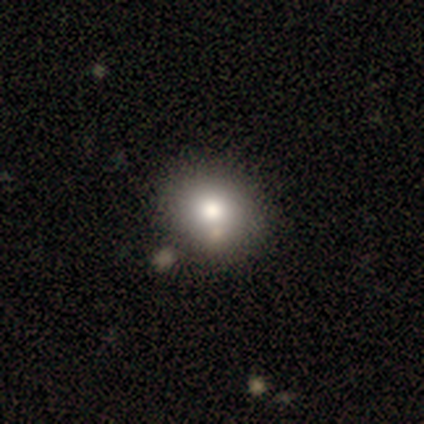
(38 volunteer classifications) Smooth or featured? smooth (79%)
How rounded? round (73%)
Merging? none (50%)